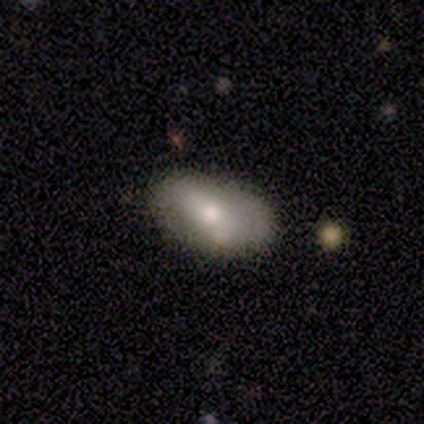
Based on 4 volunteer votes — Smooth or featured?
  - featured or disk: 75% *
  - smooth: 25%
  - star or artifact: 0%
Edge-on disk?
  - no: 100% *
  - yes: 0%
Bar?
  - strong: 67% *
  - no: 33%
  - weak: 0%
Spiral arms?
  - no: 67% *
  - yes: 33%
Bulge size?
  - moderate: 67% *
  - large: 33%
  - dominant: 0%
  - small: 0%
  - none: 0%
Merging?
  - none: 75% *
  - minor disturbance: 25%
  - major disturbance: 0%
  - merger: 0%